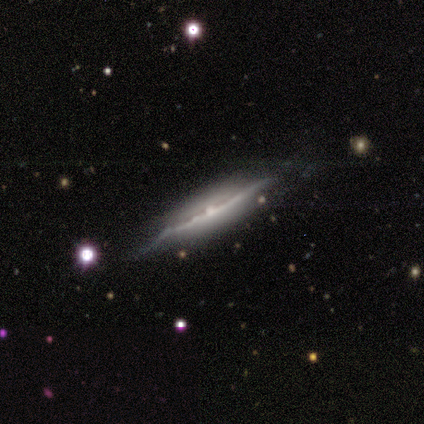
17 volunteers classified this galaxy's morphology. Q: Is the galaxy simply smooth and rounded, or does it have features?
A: featured or disk — 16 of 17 (94%).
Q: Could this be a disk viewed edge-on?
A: yes — 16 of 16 (100%).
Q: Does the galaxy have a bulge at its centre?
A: rounded — 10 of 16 (62%).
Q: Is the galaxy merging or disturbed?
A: none — 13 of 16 (81%).